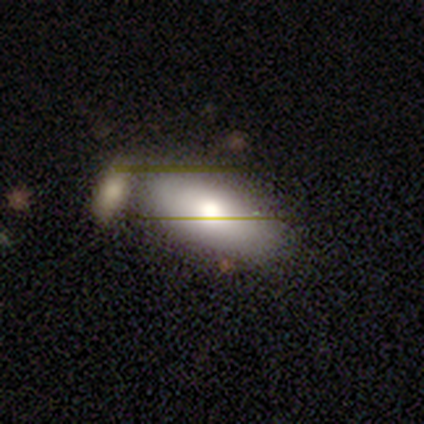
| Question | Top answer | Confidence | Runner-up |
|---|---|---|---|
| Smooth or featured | smooth | 65% | featured or disk (23%) |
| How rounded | in between | 94% | cigar-shaped (6%) |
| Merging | none | 62% | merger (31%) |